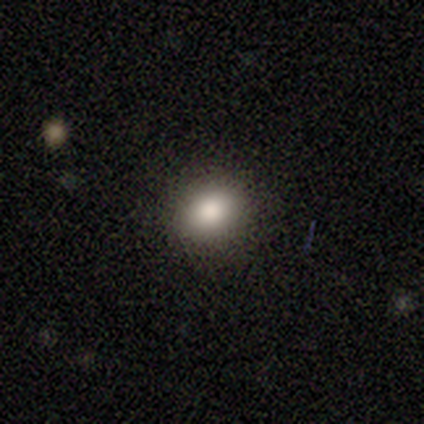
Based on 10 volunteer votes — Smooth or featured?
  - smooth: 80% *
  - featured or disk: 10%
  - star or artifact: 10%
How rounded?
  - in between: 62% *
  - round: 38%
  - cigar-shaped: 0%
Merging?
  - none: 78% *
  - minor disturbance: 22%
  - major disturbance: 0%
  - merger: 0%